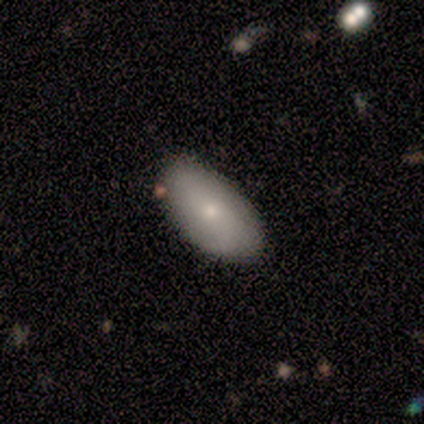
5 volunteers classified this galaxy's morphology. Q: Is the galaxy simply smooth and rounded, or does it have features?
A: smooth — 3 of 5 (60%).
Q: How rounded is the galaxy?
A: in between — 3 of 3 (100%).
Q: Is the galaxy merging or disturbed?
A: none — 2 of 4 (50%, tied with minor disturbance).